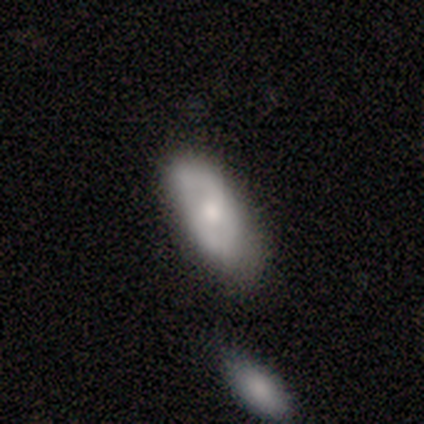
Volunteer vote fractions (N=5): Smooth or featured: smooth — 60% (featured or disk — 40%)
How rounded: in between — 67% (cigar-shaped — 33%)
Merging: none — 40% (tied with minor disturbance — 40%)